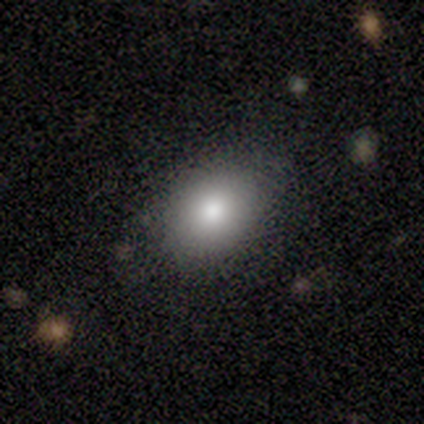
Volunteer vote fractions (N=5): Smooth or featured?
  - smooth: 100% *
  - featured or disk: 0%
  - star or artifact: 0%
How rounded?
  - in between: 60% *
  - round: 40%
  - cigar-shaped: 0%
Merging?
  - none: 60% *
  - minor disturbance: 40%
  - major disturbance: 0%
  - merger: 0%